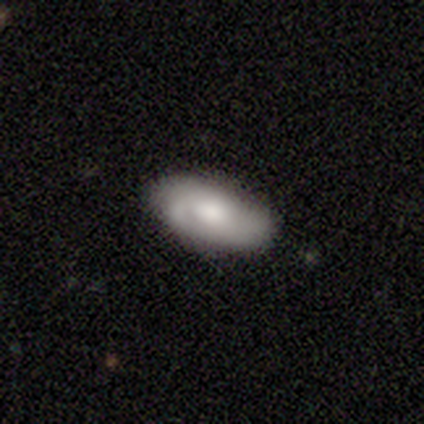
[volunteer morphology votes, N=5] smooth_or_featured: smooth (p=0.60) [alt: featured or disk p=0.40]
how_rounded: in between (p=1.00)
merging: none (p=0.80) [alt: minor disturbance p=0.20]